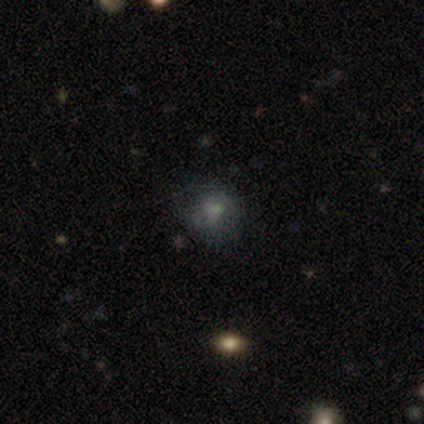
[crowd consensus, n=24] A smooth galaxy with no disk features (67%) that is round (88%).

Vote fractions:
- Smooth or featured? smooth: 67% / star or artifact: 25% / featured or disk: 8%
- How rounded? round: 88% / in between: 12% / cigar-shaped: 0%
- Merging? none: 78% / minor disturbance: 17% / merger: 6% / major disturbance: 0%